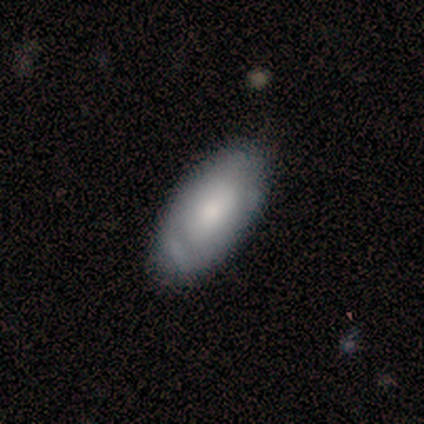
Volunteers were most divided on "smooth or featured": smooth: 75%, featured or disk: 25%, star or artifact: 0%. More confident: how rounded — in between (100%); merging — none (75%).